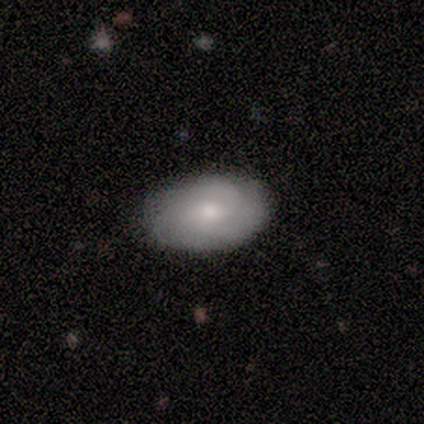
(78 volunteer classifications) Overall: smooth (51%; featured or disk 41%). How rounded: in between (92%). Merging: none (56%).